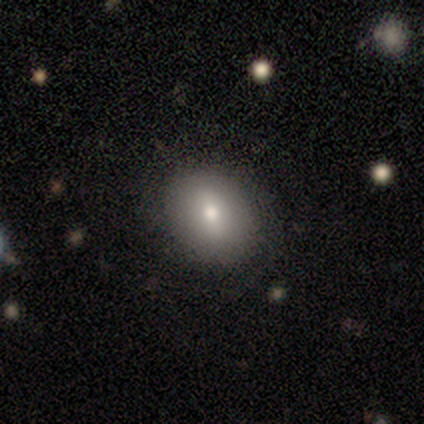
smooth_or_featured: smooth (p=0.80) [alt: featured or disk p=0.20]
how_rounded: in between (p=0.75) [alt: round p=0.25]
merging: none (p=1.00)